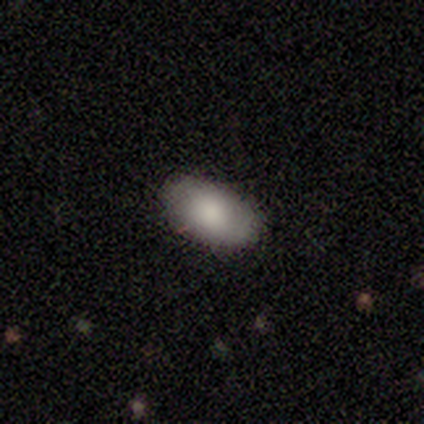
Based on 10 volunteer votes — Q: Smooth or featured?
A: smooth (80%); runner-up: featured or disk (20%)
Q: How rounded?
A: in between (100%)
Q: Merging?
A: none (100%)